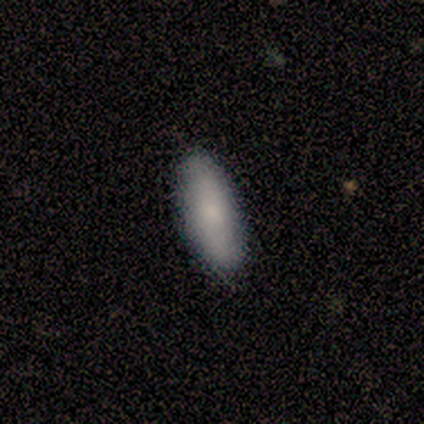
Smooth or featured: smooth — 60% (featured or disk — 40%)
How rounded: in between — 100%
Merging: none — 80% (minor disturbance — 20%)